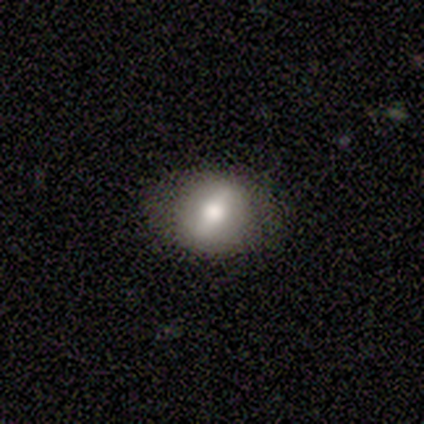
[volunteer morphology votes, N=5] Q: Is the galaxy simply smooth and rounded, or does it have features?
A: smooth — 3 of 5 (60%).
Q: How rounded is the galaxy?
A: round — 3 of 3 (100%).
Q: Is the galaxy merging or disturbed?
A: none — 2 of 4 (50%, tied with minor disturbance).